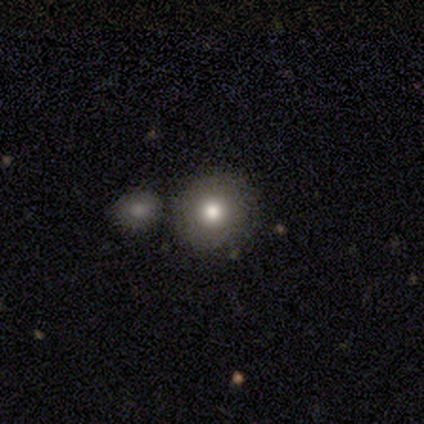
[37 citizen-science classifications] Morphology: type=smooth (62%); roundness=round (83%); merging=none (71%).